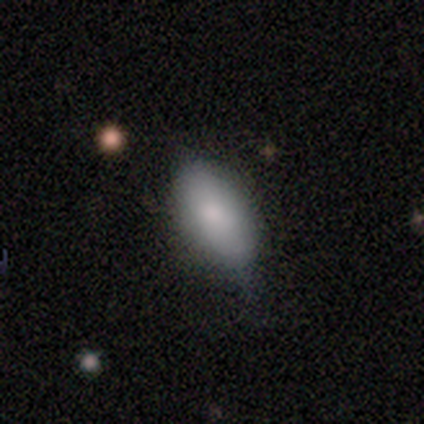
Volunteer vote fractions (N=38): This is clearly a smooth galaxy (84%). How rounded: clearly in between (88%). Merging: marginally none (43%).